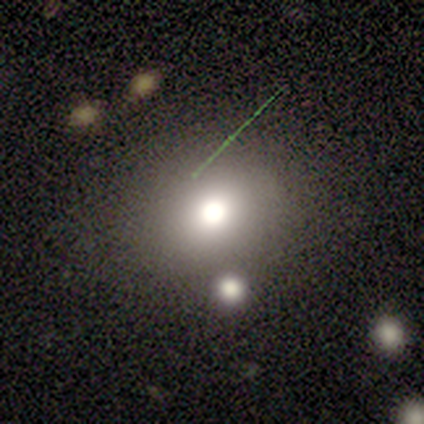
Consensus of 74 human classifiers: This is likely a smooth galaxy (66%). How rounded: likely round (76%). Merging: marginally none (44%).